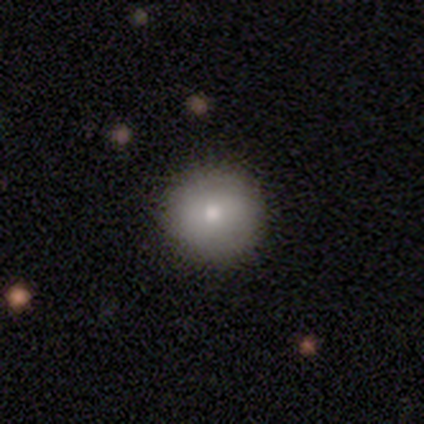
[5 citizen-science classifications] Smooth or featured? 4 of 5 (80%) said smooth. How rounded? 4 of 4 (100%) said round. Merging? 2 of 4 (50%, tied with minor disturbance) said none.